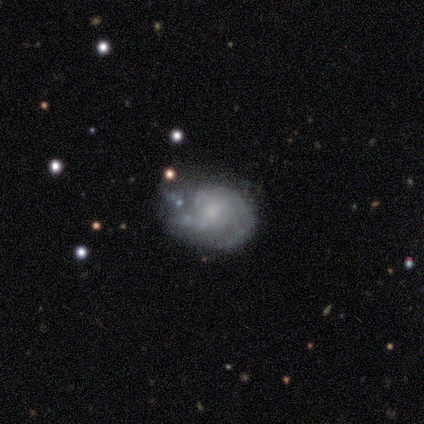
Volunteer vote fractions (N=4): featured or disk 75%, star or artifact 25%, smooth 0%. Down the decision tree: edge-on disk — no (100%); bar — strong (33%, tied with weak and no); spiral arms — yes (100%); spiral arm count — 2 (67%); spiral winding — tight (67%); bulge size — small (100%); merging — minor disturbance (67%).